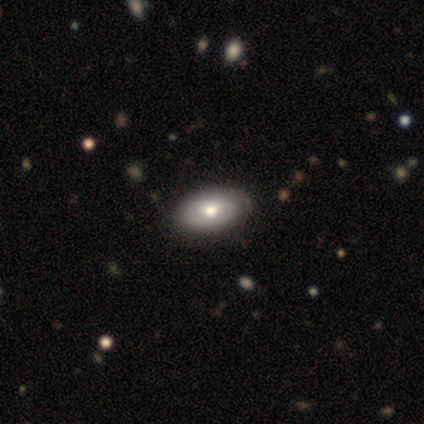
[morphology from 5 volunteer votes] Volunteers were most divided on "smooth or featured": smooth: 60%, featured or disk: 40%, star or artifact: 0%. More confident: how rounded — in between (100%); merging — none (80%).